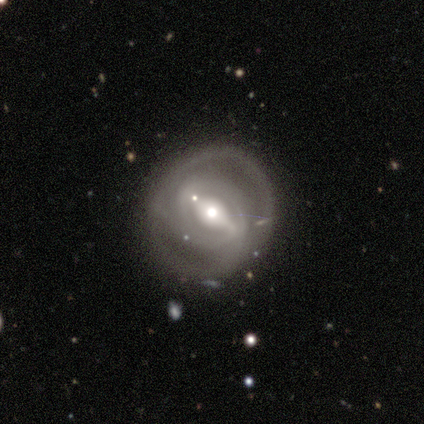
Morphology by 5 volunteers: featured or disk 100%, smooth 0%, star or artifact 0%. Down the decision tree: edge-on disk — no (100%); bar — strong (60%); spiral arms — yes (60%); spiral arm count — 2 (67%); spiral winding — tight (67%); bulge size — moderate (100%); merging — none (60%).